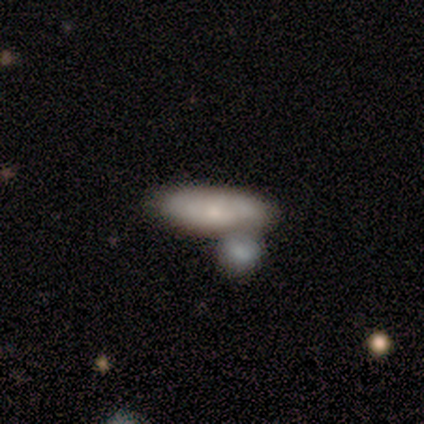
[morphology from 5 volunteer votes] Volunteers were most divided on "smooth or featured": smooth: 60%, featured or disk: 40%, star or artifact: 0%. More confident: how rounded — in between (67%); merging — merger (60%).